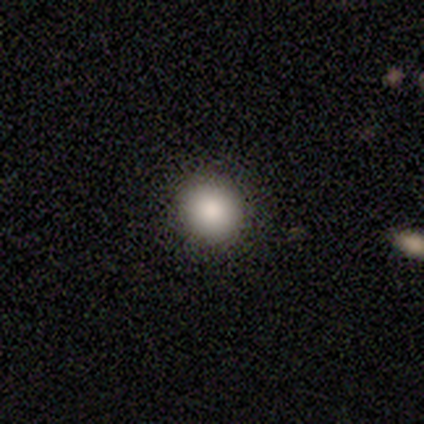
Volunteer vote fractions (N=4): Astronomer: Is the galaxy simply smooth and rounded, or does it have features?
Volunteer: smooth — 100%.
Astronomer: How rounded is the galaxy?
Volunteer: round — 75%.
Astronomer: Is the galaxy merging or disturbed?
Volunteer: none — 50%.